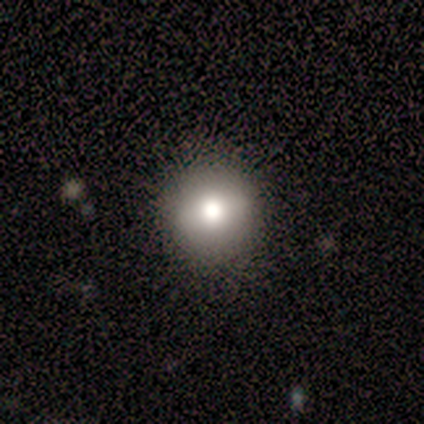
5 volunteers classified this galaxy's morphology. Volunteers were most divided on "smooth or featured": smooth: 60%, featured or disk: 40%, star or artifact: 0%. More confident: merging — none (80%); how rounded — round (67%).